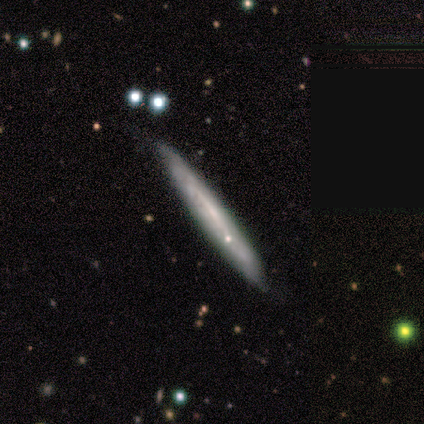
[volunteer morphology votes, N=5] smooth-or-featured: featured or disk: 80% | smooth: 20% | star or artifact: 0%
  disk-edge-on: yes: 75% | no: 25%
    edge-on-bulge: none: 100% | boxy: 0% | rounded: 0%
  merging: none: 100% | minor disturbance: 0% | major disturbance: 0% | merger: 0%